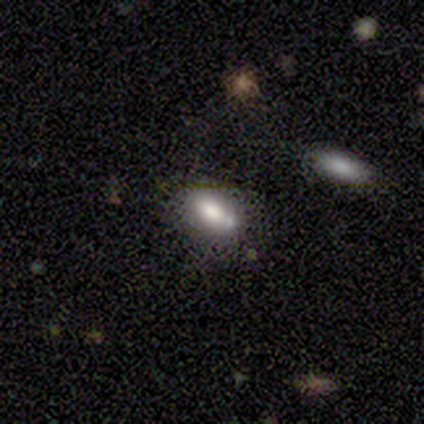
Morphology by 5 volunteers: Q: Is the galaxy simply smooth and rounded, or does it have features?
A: smooth — 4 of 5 (80%).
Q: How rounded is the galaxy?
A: in between — 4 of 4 (100%).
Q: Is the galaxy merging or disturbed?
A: none — 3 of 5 (60%).